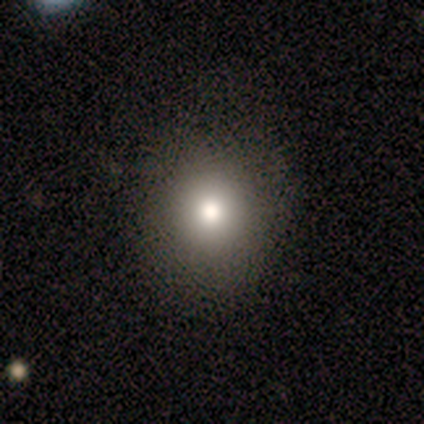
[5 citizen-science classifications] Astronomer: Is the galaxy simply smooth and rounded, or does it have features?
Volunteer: smooth — 80%.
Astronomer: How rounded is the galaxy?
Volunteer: round — 50%, tied with in between at 50%.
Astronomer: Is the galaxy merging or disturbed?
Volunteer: none — 100%.